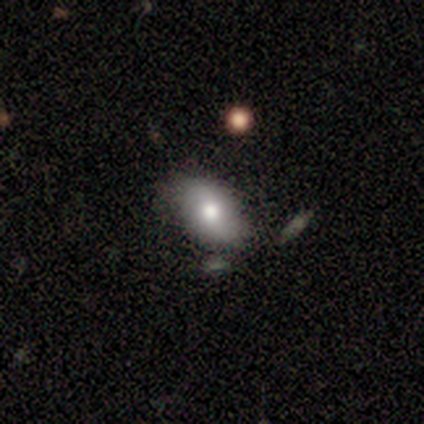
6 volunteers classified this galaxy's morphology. This is clearly a smooth galaxy (83%). How rounded: clearly in between (100%). Merging: likely none (67%).